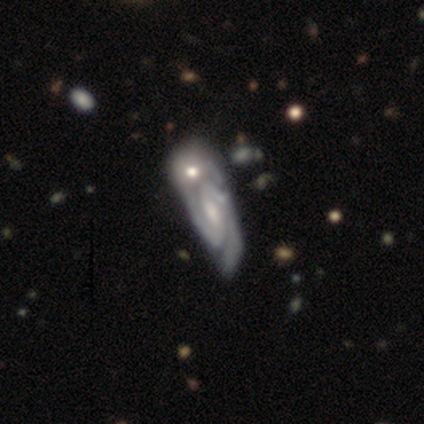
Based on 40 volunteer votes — Smooth or featured? 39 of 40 (98%) said featured or disk. Edge-on disk? 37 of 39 (95%) said no. Bar? 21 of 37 (57%) said weak. Spiral arms? 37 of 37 (100%) said yes. Spiral winding? 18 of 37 (49%, tied with medium) said tight. Spiral arm count? 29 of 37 (78%) said 2. Bulge size? 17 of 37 (46%) said moderate. Merging? 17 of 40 (42%) said merger.